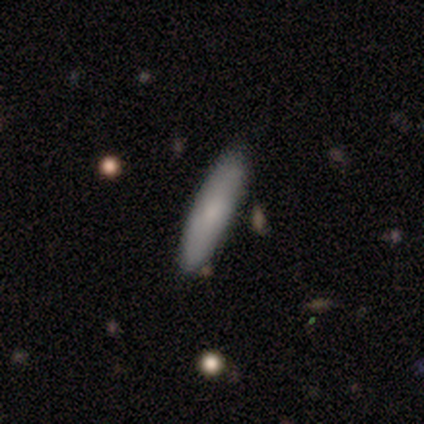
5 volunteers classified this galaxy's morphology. smooth-or-featured: smooth: 100% | featured or disk: 0% | star or artifact: 0%
  how-rounded: cigar-shaped: 80% | in between: 20% | round: 0%
  merging: none: 100% | minor disturbance: 0% | major disturbance: 0% | merger: 0%